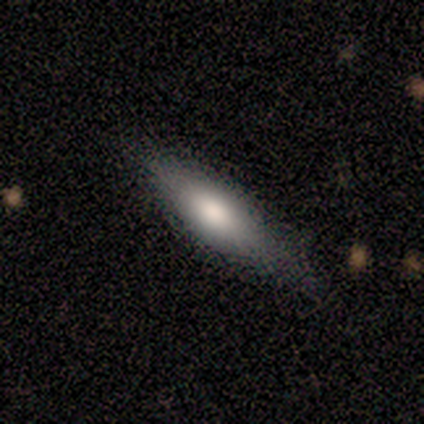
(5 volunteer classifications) Q: Smooth or featured?
A: smooth (40%); tied with: featured or disk (40%)
Q: How rounded?
A: cigar-shaped (100%)
Q: Merging?
A: none (50%); runner-up: minor disturbance (25%)